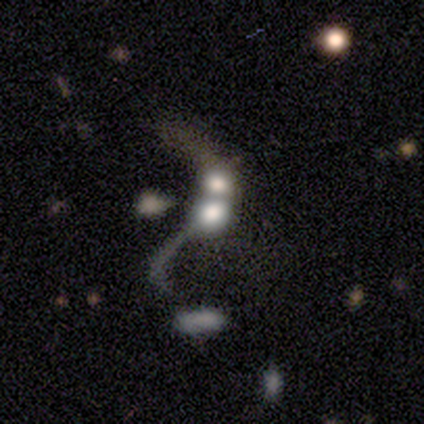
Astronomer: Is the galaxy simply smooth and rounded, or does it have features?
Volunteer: featured or disk — 75%.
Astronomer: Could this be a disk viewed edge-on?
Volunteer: no — 100%.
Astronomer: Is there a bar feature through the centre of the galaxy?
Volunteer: no — 67%.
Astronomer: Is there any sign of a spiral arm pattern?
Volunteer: no — 67%.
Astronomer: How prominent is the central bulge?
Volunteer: small — 67%.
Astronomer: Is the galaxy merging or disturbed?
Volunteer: merger — 67%.